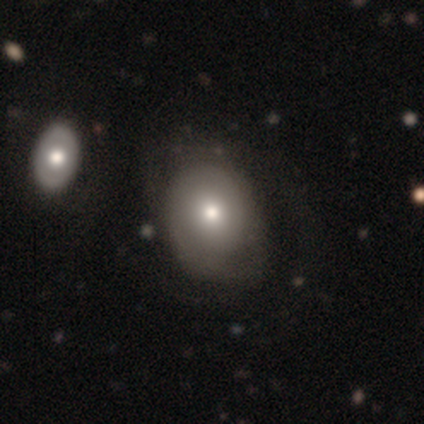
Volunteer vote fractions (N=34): smooth_or_featured: smooth (p=0.68) [alt: featured or disk p=0.32]
how_rounded: in between (p=0.52) [alt: round p=0.48]
merging: none (p=0.29) [alt: minor disturbance p=0.18]